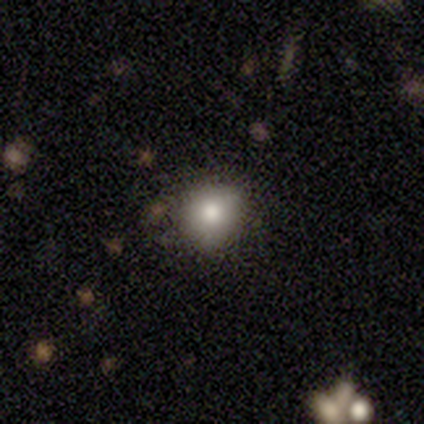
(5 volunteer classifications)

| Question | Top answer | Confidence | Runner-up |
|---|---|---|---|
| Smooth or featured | smooth | 80% | featured or disk (20%) |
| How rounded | round | 100% | — |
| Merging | none | 100% | — |